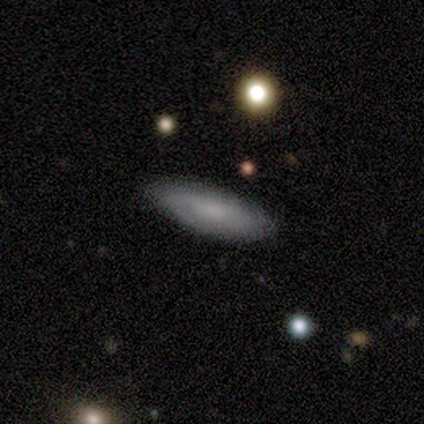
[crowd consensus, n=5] smooth-or-featured: featured or disk: 80% | smooth: 20% | star or artifact: 0%
  disk-edge-on: no: 75% | yes: 25%
    bar: no: 100% | strong: 0% | weak: 0%
    has-spiral-arms: yes: 100% | no: 0%
      spiral-winding: medium: 67% | tight: 33% | loose: 0%
      spiral-arm-count: 2: 67% | can't tell: 33% | 1: 0% | 3: 0% | 4: 0% | more than 4: 0%
    bulge-size: moderate: 33% (tied) | small: 33% (tied) | none: 33% (tied) | dominant: 0% | large: 0%
  merging: none: 100% | minor disturbance: 0% | major disturbance: 0% | merger: 0%